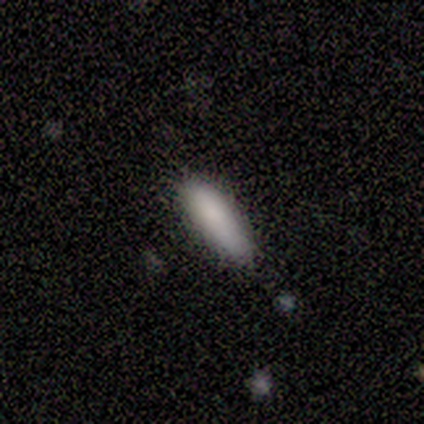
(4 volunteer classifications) This is clearly a smooth galaxy (100%). How rounded: possibly in between (50%, tied with cigar-shaped). Merging: clearly none (100%).